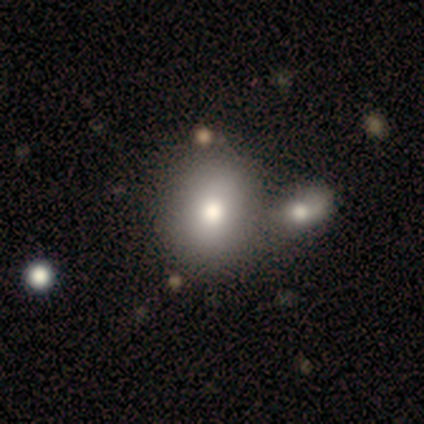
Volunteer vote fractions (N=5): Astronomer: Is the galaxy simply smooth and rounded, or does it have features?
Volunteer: smooth — 80%.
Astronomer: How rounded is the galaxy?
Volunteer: round — 75%.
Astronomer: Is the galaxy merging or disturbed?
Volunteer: none — 80%.